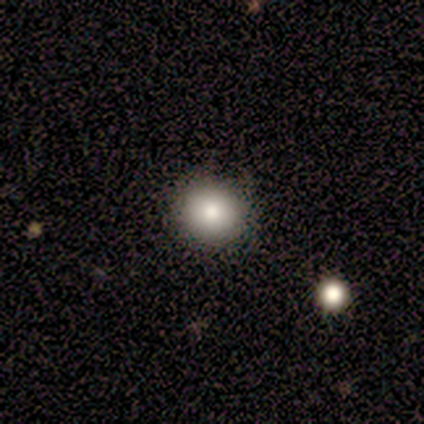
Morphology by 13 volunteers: Smooth or featured? smooth (77%)
How rounded? round (100%)
Merging? none (100%)